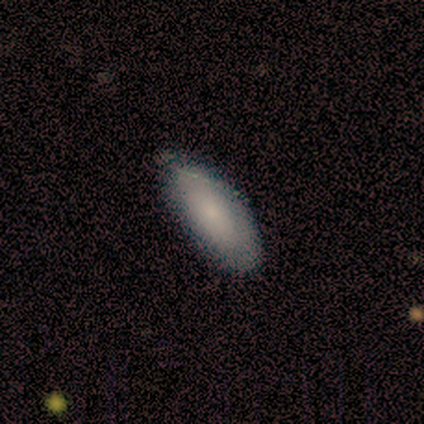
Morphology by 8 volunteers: type=smooth (75%); roundness=in between (83%); merging=none (62%).